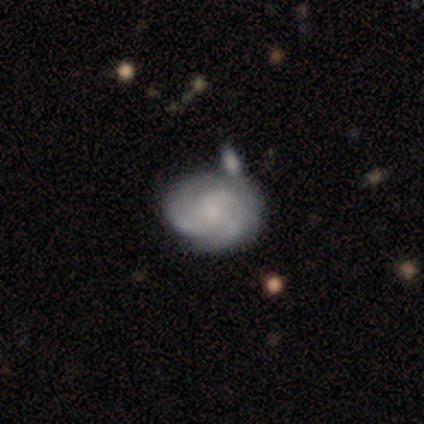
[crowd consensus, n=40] Smooth or featured? 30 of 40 (75%) said featured or disk. Edge-on disk? 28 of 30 (93%) said no. Bar? 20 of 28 (71%) said no. Spiral arms? 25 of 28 (89%) said yes. Spiral winding? 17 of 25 (68%) said tight. Spiral arm count? 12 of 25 (48%) said 2. Bulge size? 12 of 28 (43%) said small. Merging? 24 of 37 (65%) said none.